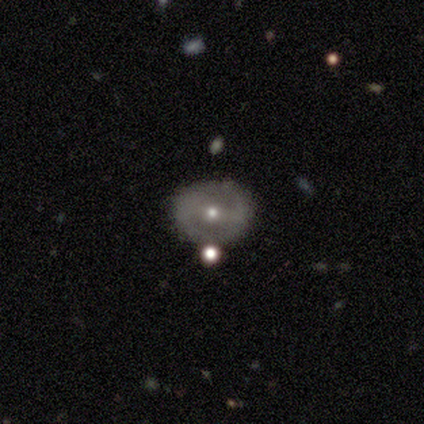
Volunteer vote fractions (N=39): This is possibly a featured or disk galaxy (59%). It is clearly not viewed edge-on (91%). Bar: marginally weak (38%, tied with no). Spiral arm pattern: clearly no (81%). Central bulge: likely small (67%). Merging: likely none (70%).